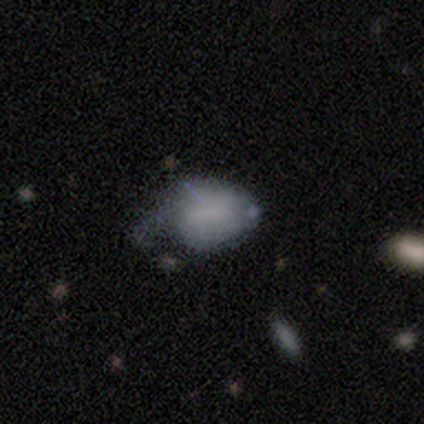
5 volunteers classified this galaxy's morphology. This is clearly a smooth galaxy (80%). How rounded: likely in between (75%). Merging: marginally minor disturbance (40%, tied with major disturbance).